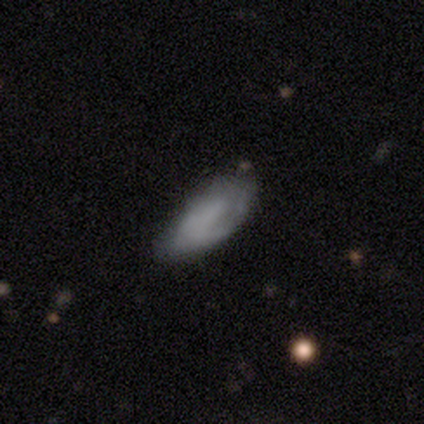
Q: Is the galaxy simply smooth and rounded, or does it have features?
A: smooth — 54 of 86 (63%).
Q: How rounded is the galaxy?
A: in between — 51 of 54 (94%).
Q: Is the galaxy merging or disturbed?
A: none — 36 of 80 (45%, tied with minor disturbance).